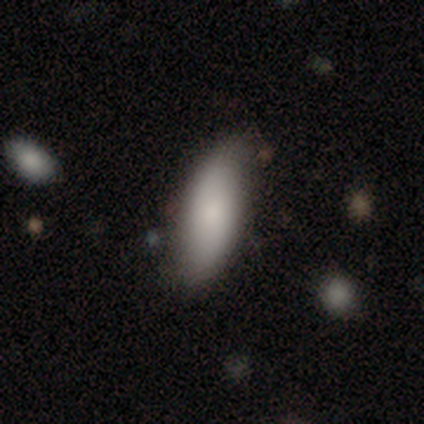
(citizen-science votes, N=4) Smooth or featured?
  - smooth: 75% *
  - star or artifact: 25%
  - featured or disk: 0%
How rounded?
  - in between: 67% *
  - cigar-shaped: 33%
  - round: 0%
Merging?
  - none: 67% *
  - minor disturbance: 33%
  - major disturbance: 0%
  - merger: 0%